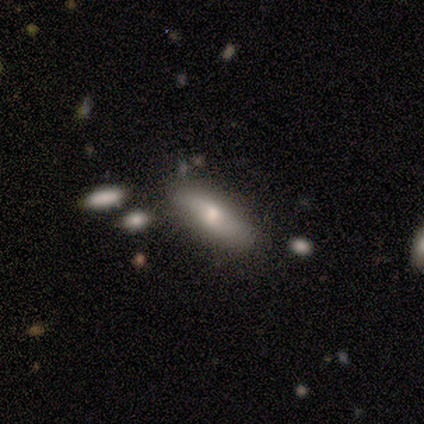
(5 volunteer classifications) Smooth or featured: smooth — 80% (featured or disk — 20%)
How rounded: in between — 50% (tied with cigar-shaped — 50%)
Merging: none — 80% (minor disturbance — 20%)